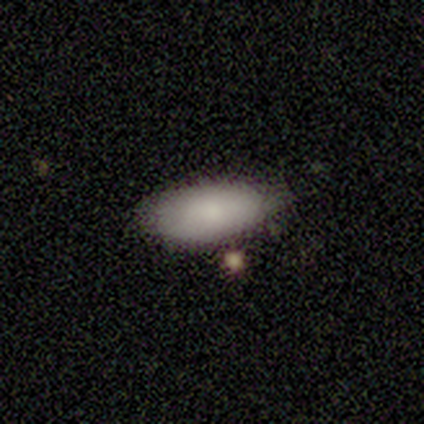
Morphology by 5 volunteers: A smooth galaxy with no disk features (100%) that is in between round and cigar-shaped (100%).

Vote fractions:
- Smooth or featured? smooth: 100% / featured or disk: 0% / star or artifact: 0%
- How rounded? in between: 100% / round: 0% / cigar-shaped: 0%
- Merging? none: 100% / minor disturbance: 0% / major disturbance: 0% / merger: 0%